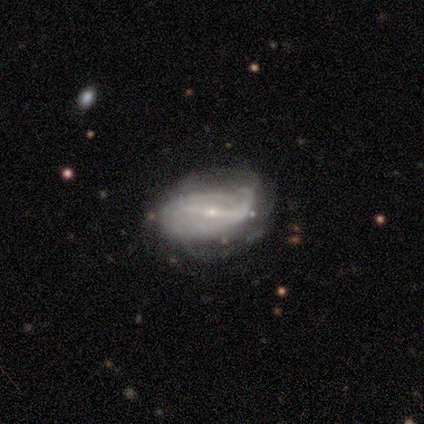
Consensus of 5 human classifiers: featured or disk 80%, smooth 20%, star or artifact 0%. Down the decision tree: edge-on disk — no (100%); bar — strong (75%); spiral arms — yes (75%); spiral arm count — can't tell (100%); spiral winding — loose (67%); bulge size — small (100%); merging — minor disturbance (40%, tied with major disturbance).